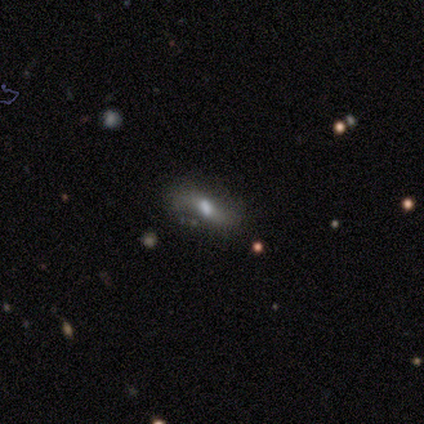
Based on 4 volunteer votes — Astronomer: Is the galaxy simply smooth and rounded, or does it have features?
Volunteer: smooth — 50%, tied with featured or disk at 50%.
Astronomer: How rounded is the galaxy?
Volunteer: in between — 100%.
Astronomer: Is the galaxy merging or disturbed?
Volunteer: none — 75%.